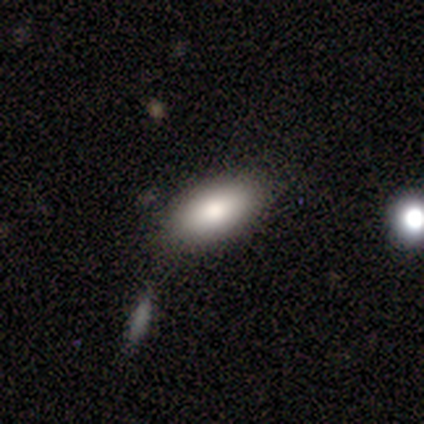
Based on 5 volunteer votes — smooth-or-featured: smooth: 100% | featured or disk: 0% | star or artifact: 0%
  how-rounded: in between: 100% | round: 0% | cigar-shaped: 0%
  merging: none: 100% | minor disturbance: 0% | major disturbance: 0% | merger: 0%